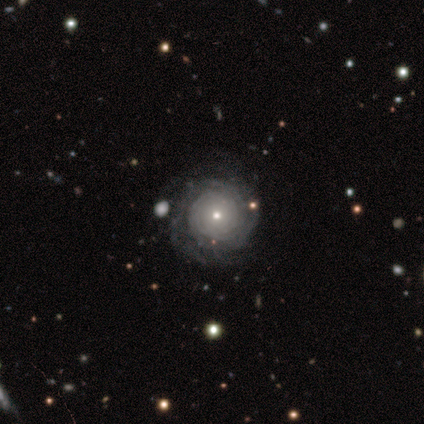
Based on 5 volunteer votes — This is clearly a featured or disk galaxy (80%). It is clearly not viewed edge-on (100%). Bar: clearly no (100%). Spiral arm pattern: clearly yes (100%). Spiral arm count: possibly 2 (50%, tied with can't tell). Spiral winding: clearly tight (100%). Central bulge: likely small (75%). Merging: likely none (60%).